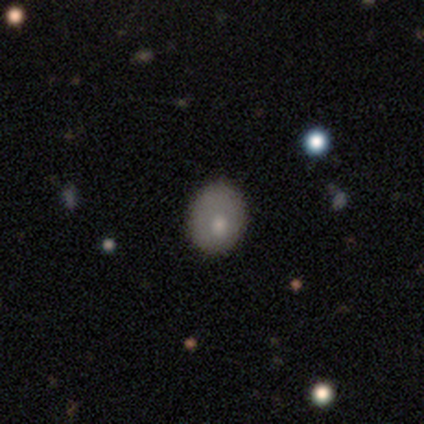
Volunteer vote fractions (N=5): smooth 60%, featured or disk 40%, star or artifact 0%. Down the decision tree: how rounded — round (67%); merging — none (80%).